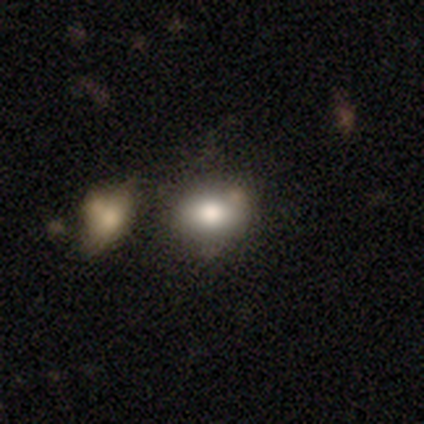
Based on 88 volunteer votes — Overall: smooth (76%). How rounded: in between (61%; round 39%). Merging: none (57%; minor disturbance 19%).